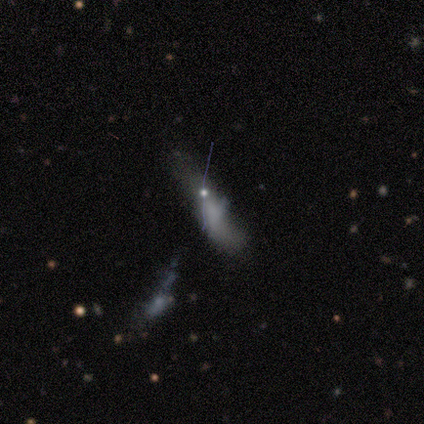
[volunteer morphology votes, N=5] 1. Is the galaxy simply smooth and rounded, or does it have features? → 60% featured or disk, 40% smooth, 0% star or artifact.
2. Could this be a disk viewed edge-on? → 100% no, 0% yes.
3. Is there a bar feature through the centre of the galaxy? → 100% no, 0% strong, 0% weak.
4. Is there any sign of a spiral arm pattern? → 100% no, 0% yes.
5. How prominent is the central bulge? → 67% small, 33% moderate, 0% dominant, 0% large, 0% none.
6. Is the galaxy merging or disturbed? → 40% none (tied), 40% major disturbance (tied), 20% minor disturbance, 0% merger.